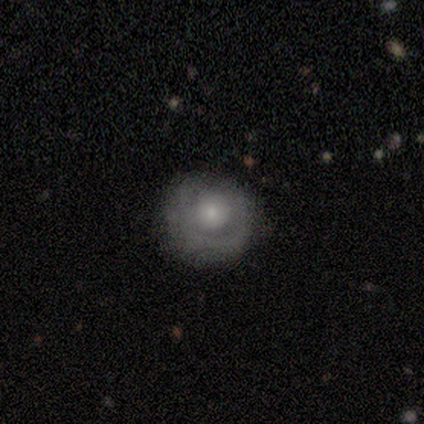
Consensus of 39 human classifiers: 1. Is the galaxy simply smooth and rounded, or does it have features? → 49% featured or disk, 38% smooth, 13% star or artifact.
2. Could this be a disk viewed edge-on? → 100% no, 0% yes.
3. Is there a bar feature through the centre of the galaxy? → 84% no, 16% weak, 0% strong.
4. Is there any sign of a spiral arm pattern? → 63% no, 37% yes.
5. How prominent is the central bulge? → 58% small, 37% moderate, 5% large, 0% dominant, 0% none.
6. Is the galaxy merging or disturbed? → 71% none, 26% minor disturbance, 3% major disturbance, 0% merger.